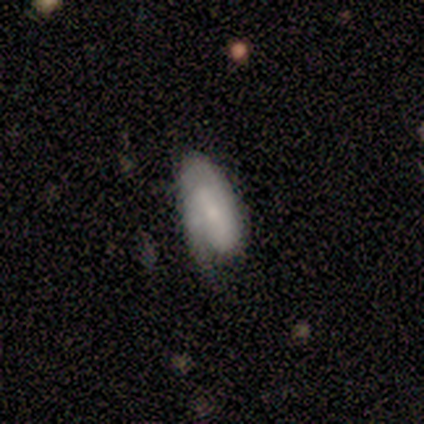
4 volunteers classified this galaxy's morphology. Volunteers were most divided on "bulge size" (3-way tie): moderate: 33%, small: 33%, none: 33%, dominant: 0%, large: 0%. More confident: edge-on disk — no (100%); spiral arms — yes (100%); smooth or featured — featured or disk (75%); bar — strong (67%); spiral winding — tight (67%); spiral arm count — 1 (67%); merging — none (67%).